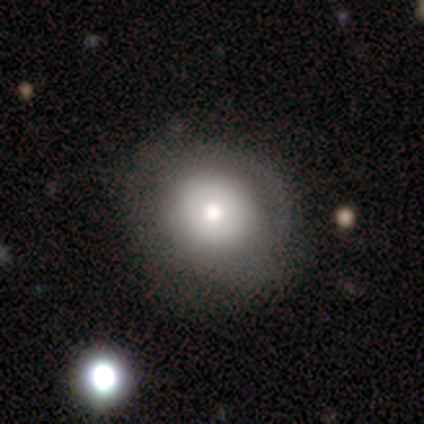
Q: Smooth or featured?
A: featured or disk (60%); runner-up: smooth (40%)
Q: Edge-on disk?
A: no (100%)
Q: Bar?
A: no (100%)
Q: Spiral arms?
A: no (100%)
Q: Bulge size?
A: dominant (33%); tied with: moderate (33%); small (33%)
Q: Merging?
A: none (40%); tied with: minor disturbance (40%)